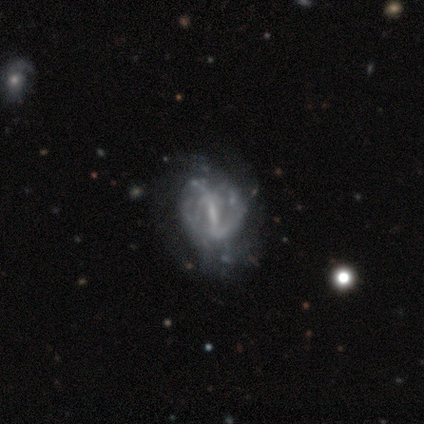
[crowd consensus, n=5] A featured or disk galaxy (80%) with a strong bar (75%), 3 (50%, tied with can't tell) tight (50%, tied with loose) spiral arms (50%, tied with no) and a small central bulge (75%). Merging: minor disturbance (80%).